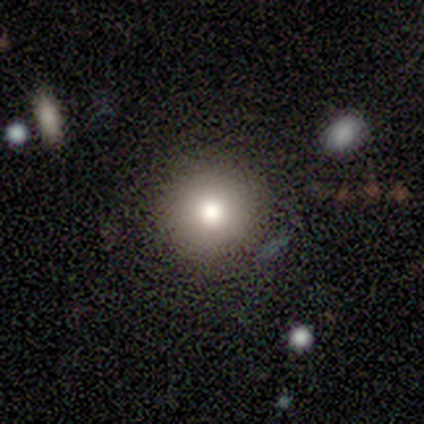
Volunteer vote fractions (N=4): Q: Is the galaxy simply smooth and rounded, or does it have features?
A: smooth — 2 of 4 (50%, tied with featured or disk).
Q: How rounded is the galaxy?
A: round — 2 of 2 (100%).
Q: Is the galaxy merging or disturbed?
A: none — 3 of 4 (75%).